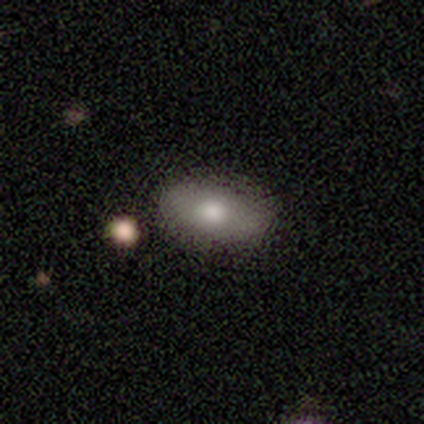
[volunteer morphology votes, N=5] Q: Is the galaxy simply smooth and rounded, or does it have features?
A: smooth — 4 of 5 (80%).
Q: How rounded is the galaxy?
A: in between — 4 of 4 (100%).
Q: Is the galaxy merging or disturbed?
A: none — 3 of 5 (60%).